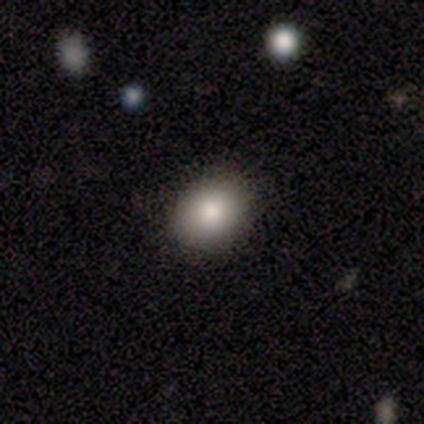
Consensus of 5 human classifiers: Q: Smooth or featured?
A: smooth (80%); runner-up: featured or disk (20%)
Q: How rounded?
A: in between (100%)
Q: Merging?
A: none (100%)